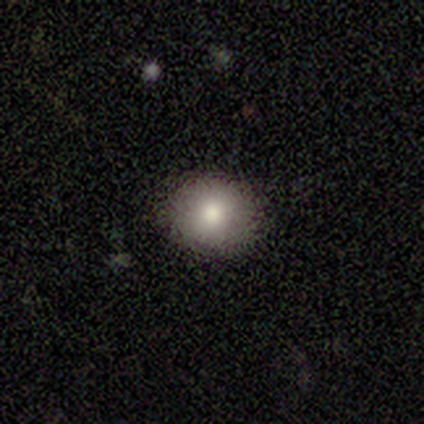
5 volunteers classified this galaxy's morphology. This appears to be a smooth galaxy with no disk features (60%) that is round (67%). Merging: none (75%).